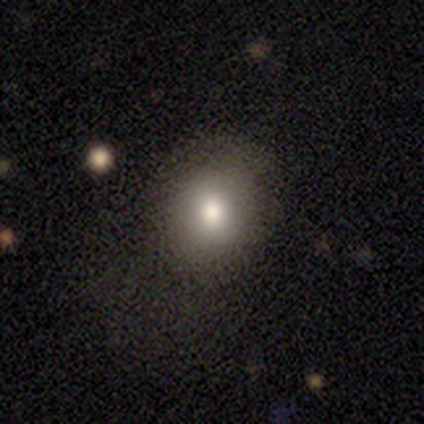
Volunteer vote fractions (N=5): A smooth galaxy with no disk features (80%) that is in between round and cigar-shaped (100%).

Vote fractions:
- Smooth or featured? smooth: 80% / star or artifact: 20% / featured or disk: 0%
- How rounded? in between: 100% / round: 0% / cigar-shaped: 0%
- Merging? none: 50% (tied) / major disturbance: 50% (tied) / minor disturbance: 0% / merger: 0%